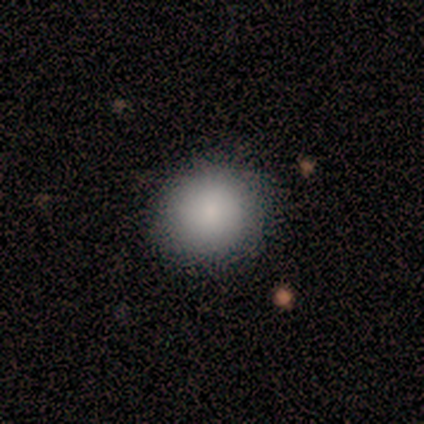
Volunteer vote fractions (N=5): A smooth galaxy with no disk features (100%) that is round (80%).

Vote fractions:
- Smooth or featured? smooth: 100% / featured or disk: 0% / star or artifact: 0%
- How rounded? round: 80% / in between: 20% / cigar-shaped: 0%
- Merging? none: 100% / minor disturbance: 0% / major disturbance: 0% / merger: 0%